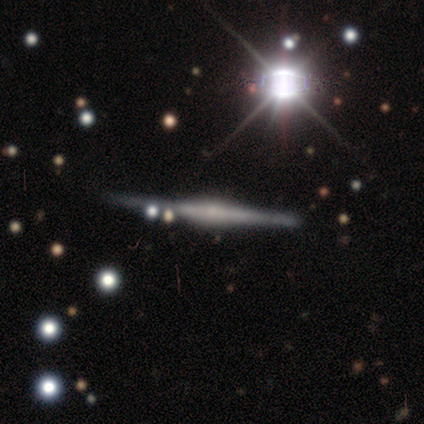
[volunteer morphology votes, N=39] type=featured or disk (79%); edge-on=yes (100%); edge-on bulge=rounded (77%); merging=none (49%).